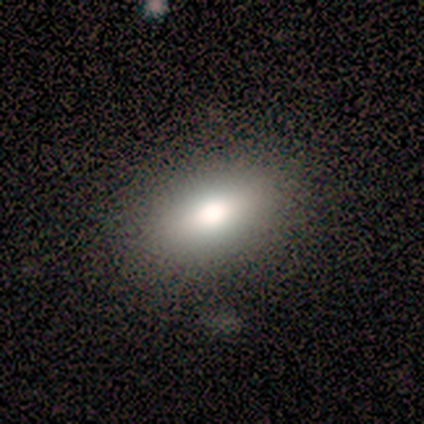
smooth 83%, star or artifact 17%, featured or disk 0%. Down the decision tree: how rounded — in between (100%); merging — none (100%).